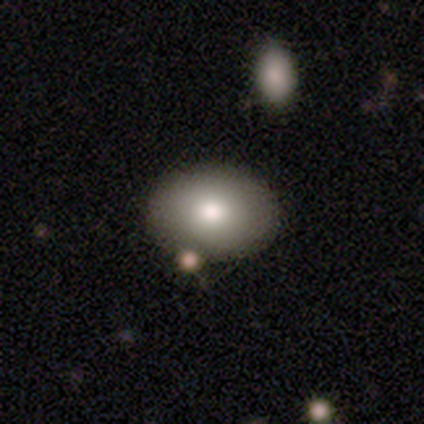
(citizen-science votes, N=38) Morphology: type=smooth (87%); roundness=in between (85%); merging=none (73%).